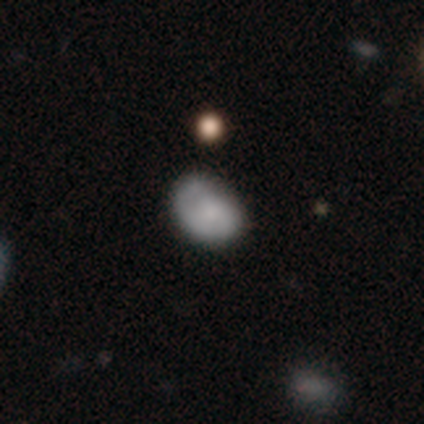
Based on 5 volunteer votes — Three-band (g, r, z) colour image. It shows a smooth galaxy with no disk features (60%) that is in between round and cigar-shaped (67%). Merging: none (50%, tied with minor disturbance).